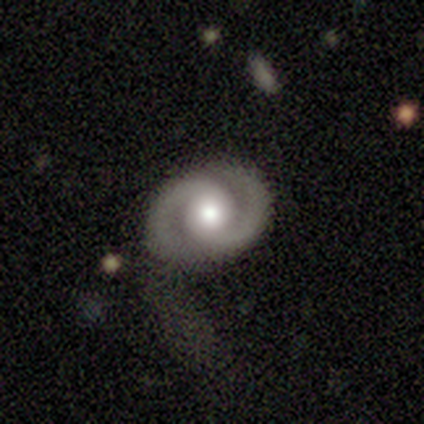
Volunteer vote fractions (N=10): Smooth or featured: featured or disk — 100%
Edge-on disk: no — 100%
Bar: no — 80% (strong — 10%)
Spiral arms: yes — 100%
Spiral winding: tight — 50% (medium — 40%)
Spiral arm count: 2 — 100%
Bulge size: moderate — 60% (large — 30%)
Merging: none — 90% (major disturbance — 10%)